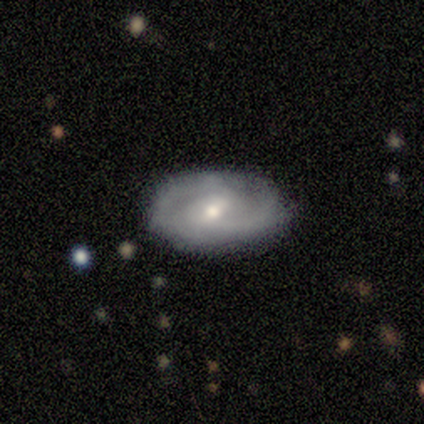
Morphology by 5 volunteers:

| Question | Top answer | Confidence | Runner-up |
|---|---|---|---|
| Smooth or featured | featured or disk | 80% | smooth (20%) |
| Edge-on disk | no | 100% | — |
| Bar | weak | 75% | no (25%) |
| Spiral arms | yes | 100% | — |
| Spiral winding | medium | 75% | tight (25%) |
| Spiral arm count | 2 | 100% | — |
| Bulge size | small | 75% | moderate (25%) |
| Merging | none | 80% | minor disturbance (20%) |